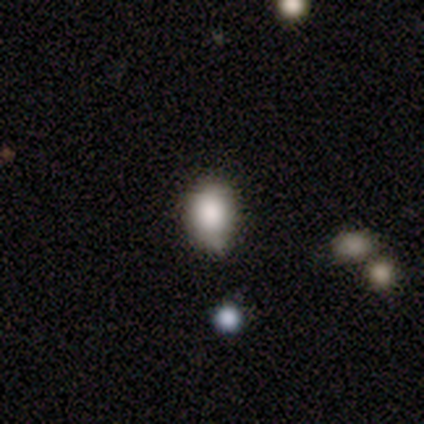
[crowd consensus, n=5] Smooth or featured?
  - smooth: 60% *
  - featured or disk: 40%
  - star or artifact: 0%
How rounded?
  - round: 67% *
  - in between: 33%
  - cigar-shaped: 0%
Merging?
  - none: 60% *
  - minor disturbance: 40%
  - major disturbance: 0%
  - merger: 0%